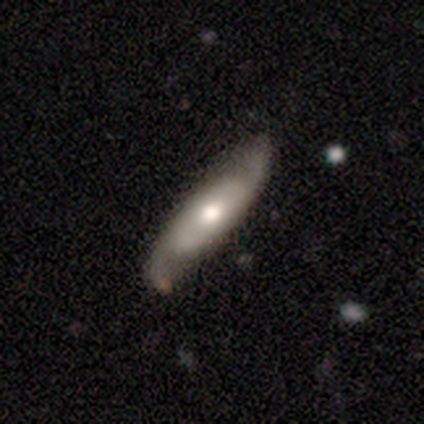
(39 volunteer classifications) Morphology: type=featured or disk (62%); edge-on=yes (50%, tied with no); edge-on bulge=rounded (92%); merging=none (46%).